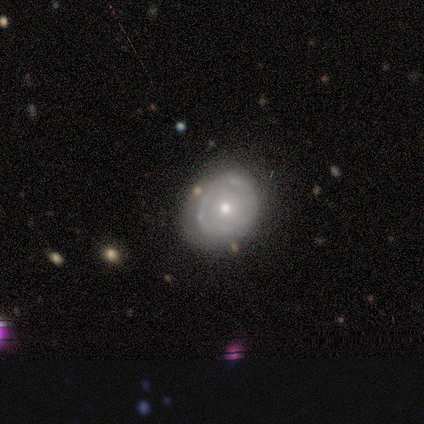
featured or disk 80%, smooth 20%, star or artifact 0%. Down the decision tree: edge-on disk — no (100%); bar — no (100%); spiral arms — yes (50%, tied with no); spiral arm count — can't tell (100%); spiral winding — tight (50%, tied with loose); bulge size — moderate (75%); merging — none (40%, tied with minor disturbance).